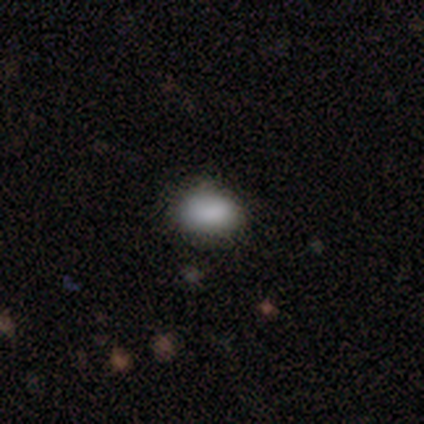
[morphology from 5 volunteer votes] This is clearly a smooth galaxy (100%). How rounded: clearly in between (80%). Merging: clearly none (80%).